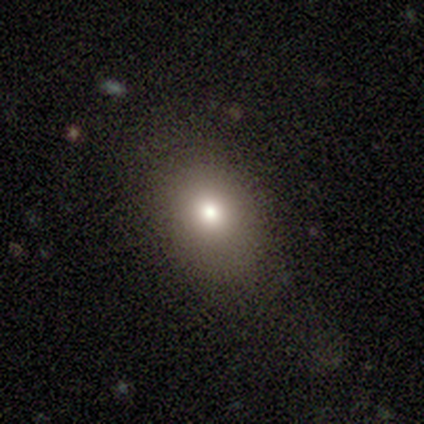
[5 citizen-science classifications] Volunteers were most divided on "merging" (2-way tie): none: 50%, minor disturbance: 50%, major disturbance: 0%, merger: 0%. More confident: smooth or featured — smooth (80%); how rounded — in between (75%).